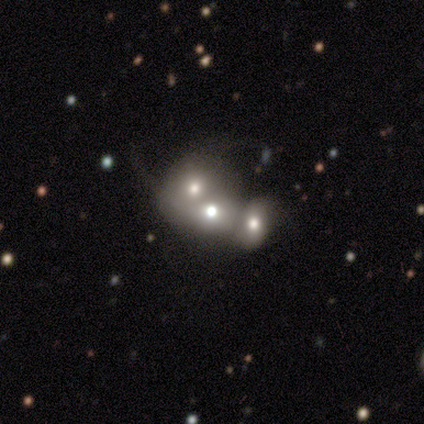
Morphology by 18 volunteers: type=smooth (67%); roundness=round (83%); merging=merger (76%).